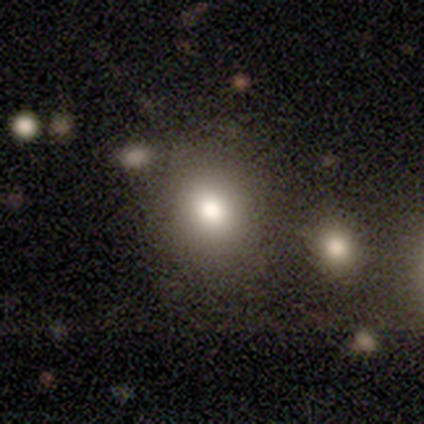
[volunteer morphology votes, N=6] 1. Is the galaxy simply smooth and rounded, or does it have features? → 83% smooth, 17% star or artifact, 0% featured or disk.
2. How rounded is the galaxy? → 40% round (tied), 40% in between (tied), 20% cigar-shaped.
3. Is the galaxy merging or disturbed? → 60% merger, 40% none, 0% minor disturbance, 0% major disturbance.